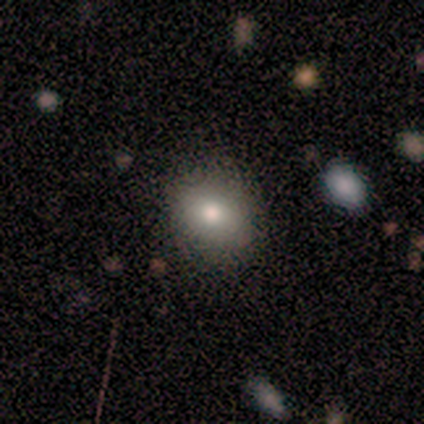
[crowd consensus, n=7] smooth 86%, star or artifact 14%, featured or disk 0%. Down the decision tree: how rounded — round (67%); merging — none (83%).